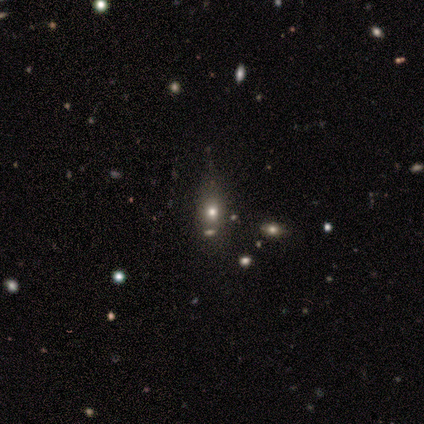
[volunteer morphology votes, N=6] type=star or artifact (50%).